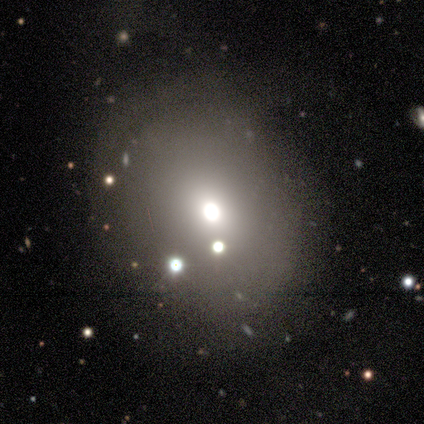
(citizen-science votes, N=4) This appears to be a smooth galaxy with no disk features (75%) that is round (100%). Merging: none (100%).